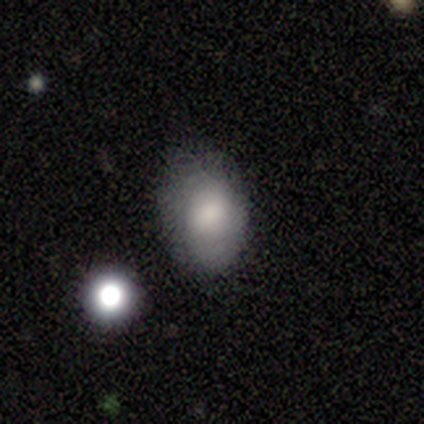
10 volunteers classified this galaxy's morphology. This is likely a smooth galaxy (70%). How rounded: clearly in between (86%). Merging: likely none (67%).